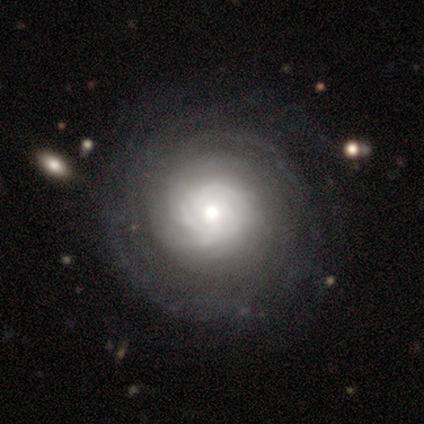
This is clearly a featured or disk galaxy (80%). It is likely not viewed edge-on (75%). Bar: clearly no (100%). Spiral arm pattern: clearly yes (100%). Spiral arm count: clearly can't tell (100%). Spiral winding: likely tight (67%). Central bulge: clearly moderate (100%). Merging: clearly none (100%).